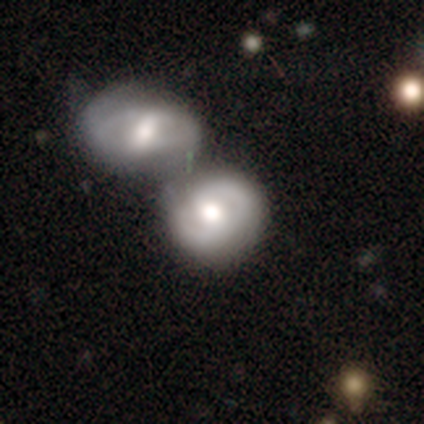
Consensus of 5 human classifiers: Morphology: type=featured or disk (60%); edge-on=no (100%); bar=weak (67%); spiral arms=yes (67%); winding=tight (100%); arm count=2 (100%); bulge=moderate (100%); merging=none (50%).